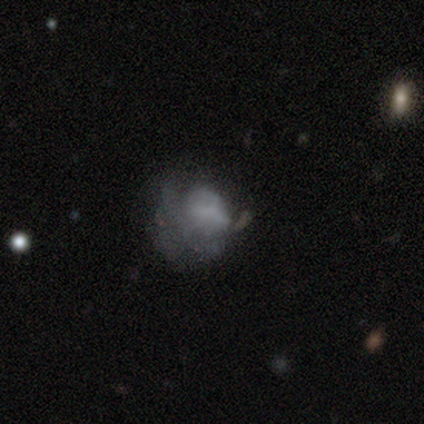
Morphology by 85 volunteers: This is marginally a featured or disk galaxy (45%). It is clearly not viewed edge-on (97%). Bar: likely no (78%). Spiral arm pattern: clearly no (95%). Central bulge: likely none (78%). Merging: marginally major disturbance (39%).